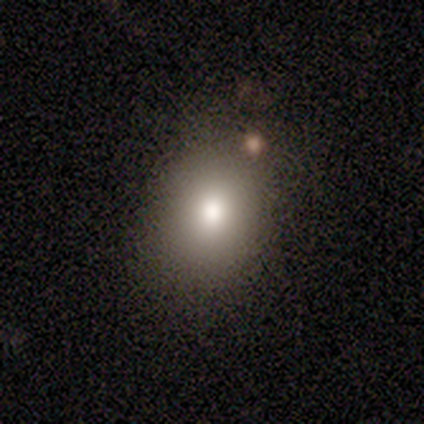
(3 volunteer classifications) This appears to be a star or artifact, not a galaxy (67%).